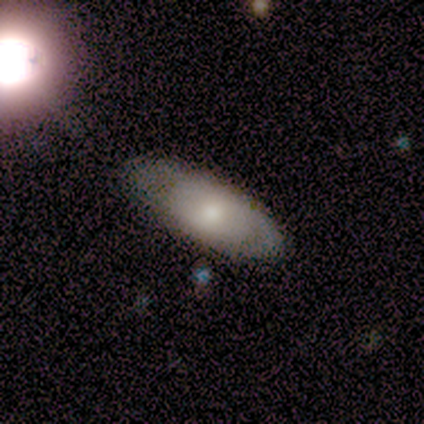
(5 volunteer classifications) Overall: smooth (60%; featured or disk 40%). How rounded: in between (100%). Merging: none (100%).